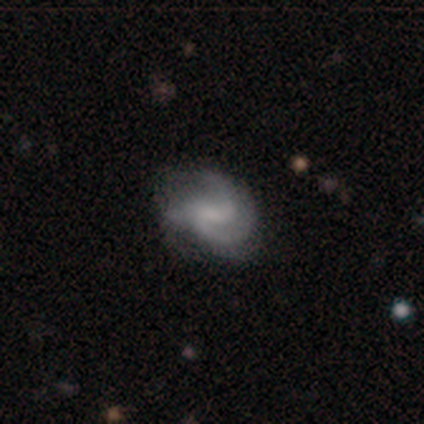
Smooth or featured?
  - featured or disk: 60% *
  - smooth: 20%
  - star or artifact: 20%
Edge-on disk?
  - no: 100% *
  - yes: 0%
Bar?
  - weak: 67% *
  - no: 33%
  - strong: 0%
Spiral arms?
  - yes: 67% *
  - no: 33%
Spiral winding?
  - medium: 100% *
  - tight: 0%
  - loose: 0%
Spiral arm count?
  - 2: 50% * (tied)
  - 3: 50% * (tied)
  - 1: 0%
  - 4: 0%
  - more than 4: 0%
  - can't tell: 0%
Bulge size?
  - moderate: 67% *
  - none: 33%
  - dominant: 0%
  - large: 0%
  - small: 0%
Merging?
  - none: 75% *
  - major disturbance: 25%
  - minor disturbance: 0%
  - merger: 0%